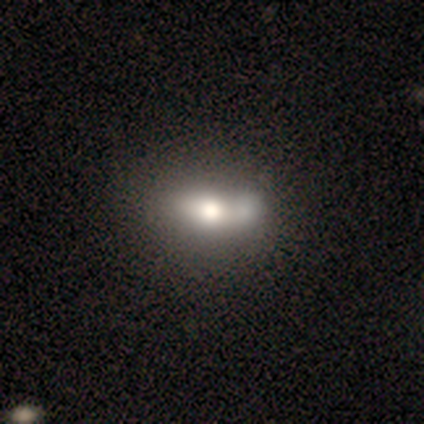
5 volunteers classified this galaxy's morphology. This appears to be a smooth galaxy with no disk features (60%) that is in between round and cigar-shaped (67%). Merging: none (50%).